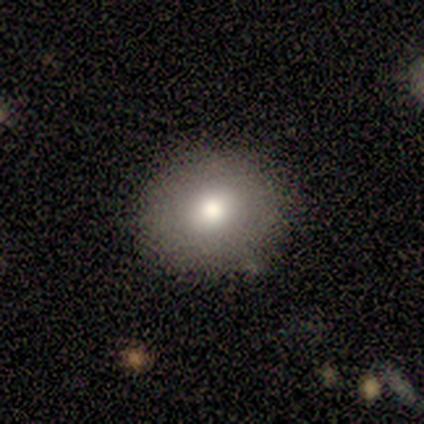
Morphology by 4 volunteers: A smooth galaxy with no disk features (100%) that is round (100%).

Vote fractions:
- Smooth or featured? smooth: 100% / featured or disk: 0% / star or artifact: 0%
- How rounded? round: 100% / in between: 0% / cigar-shaped: 0%
- Merging? none: 75% / minor disturbance: 25% / major disturbance: 0% / merger: 0%